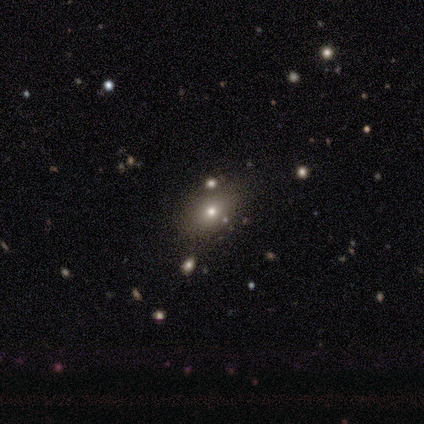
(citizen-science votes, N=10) Smooth or featured: smooth — 70% (star or artifact — 20%)
How rounded: in between — 86% (round — 14%)
Merging: none — 100%